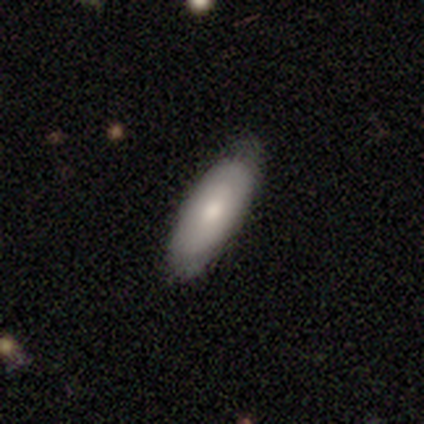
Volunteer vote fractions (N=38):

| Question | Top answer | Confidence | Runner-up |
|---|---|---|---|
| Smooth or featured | smooth | 74% | featured or disk (16%) |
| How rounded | in between | 71% | cigar-shaped (25%) |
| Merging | none | 74% | minor disturbance (21%) |